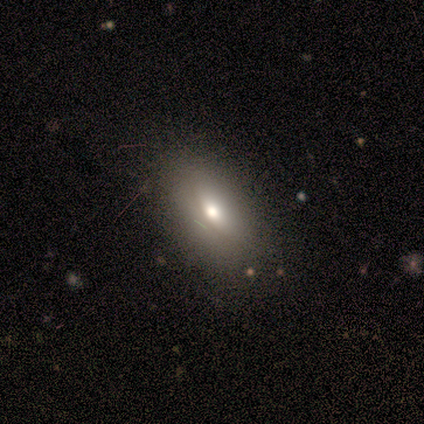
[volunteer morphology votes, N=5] A smooth galaxy with no disk features (80%) that is round (50%, tied with in between). Merging: none (100%).